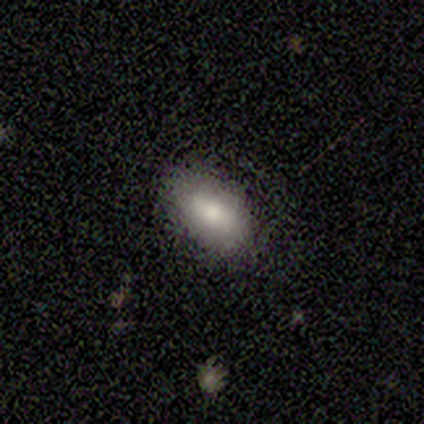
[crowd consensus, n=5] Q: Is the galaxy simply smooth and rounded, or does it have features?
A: smooth — 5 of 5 (100%).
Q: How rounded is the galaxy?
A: in between — 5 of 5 (100%).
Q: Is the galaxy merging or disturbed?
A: none — 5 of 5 (100%).